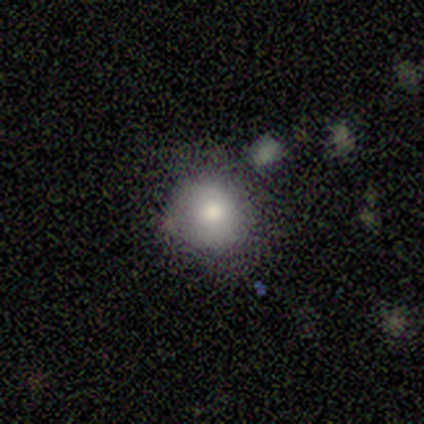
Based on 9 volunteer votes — Smooth or featured: smooth — 89% (star or artifact — 11%)
How rounded: round — 75% (in between — 25%)
Merging: none — 88% (minor disturbance — 12%)